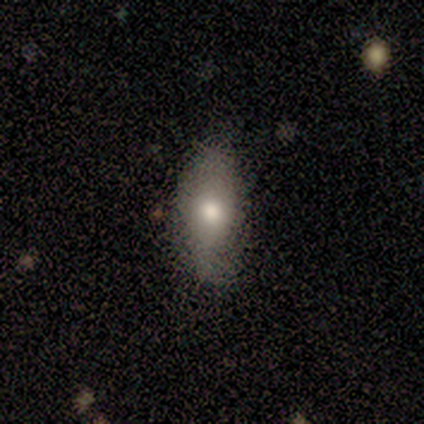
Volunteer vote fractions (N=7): A smooth galaxy with no disk features (71%) that is in between round and cigar-shaped (80%).

Vote fractions:
- Smooth or featured? smooth: 71% / star or artifact: 29% / featured or disk: 0%
- How rounded? in between: 80% / cigar-shaped: 20% / round: 0%
- Merging? none: 100% / minor disturbance: 0% / major disturbance: 0% / merger: 0%